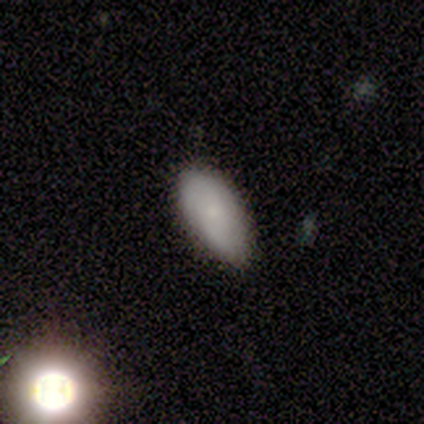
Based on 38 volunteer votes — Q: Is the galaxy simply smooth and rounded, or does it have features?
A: smooth — 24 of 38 (63%).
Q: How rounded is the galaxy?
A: in between — 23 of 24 (96%).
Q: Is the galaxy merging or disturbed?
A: none — 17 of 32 (53%).